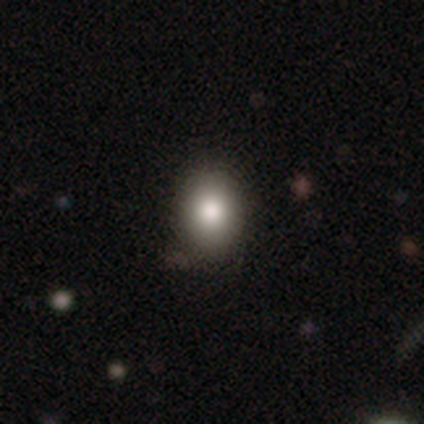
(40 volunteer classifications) Smooth or featured? 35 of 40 (88%) said smooth. How rounded? 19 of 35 (54%) said in between. Merging? 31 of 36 (86%) said none.